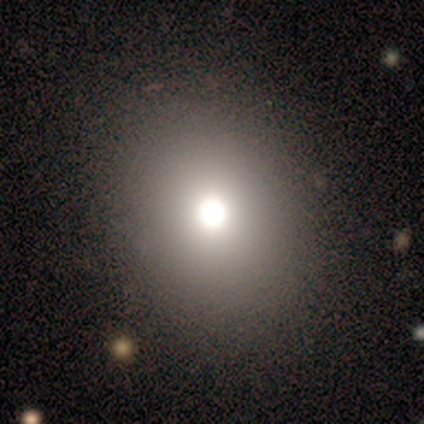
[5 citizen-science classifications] smooth-or-featured: smooth: 60% | featured or disk: 40% | star or artifact: 0%
  how-rounded: in between: 67% | round: 33% | cigar-shaped: 0%
  merging: none: 80% | minor disturbance: 20% | major disturbance: 0% | merger: 0%